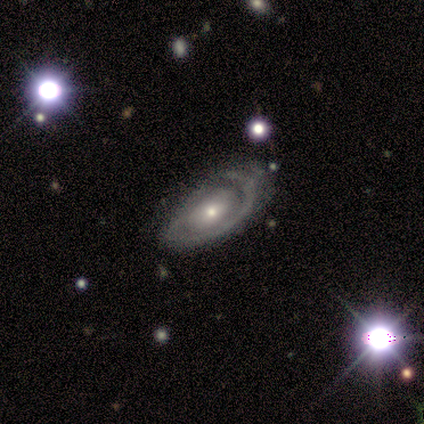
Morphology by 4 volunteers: Smooth or featured: featured or disk — 100%
Edge-on disk: no — 100%
Bar: strong — 50% (tied with no — 50%)
Spiral arms: yes — 75% (no — 25%)
Spiral winding: medium — 67% (tight — 33%)
Spiral arm count: 1 — 33% (tied with 2 — 33%; can't tell — 33%)
Bulge size: small — 50% (moderate — 25%)
Merging: minor disturbance — 75% (major disturbance — 25%)